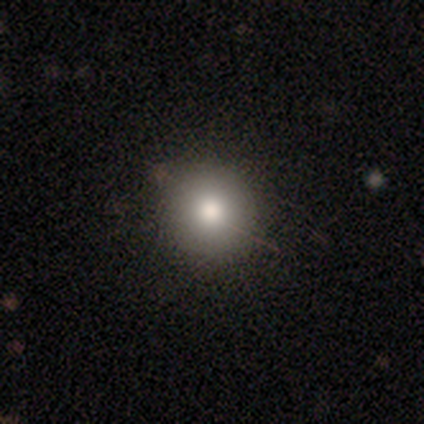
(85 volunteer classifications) Smooth or featured? 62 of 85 (73%) said smooth. How rounded? 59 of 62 (95%) said round. Merging? 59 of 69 (86%) said none.